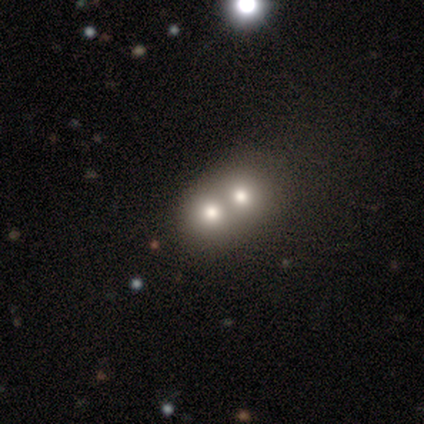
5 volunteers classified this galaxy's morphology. Smooth or featured? smooth (80%)
How rounded? round (50%, tied with in between)
Merging? merger (80%)